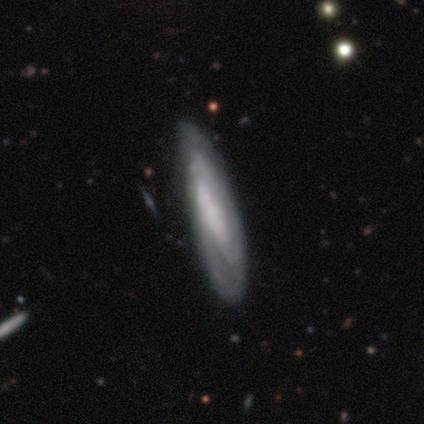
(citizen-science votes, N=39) Smooth or featured? featured or disk (77%)
Edge-on disk? no (63%)
Bar? no (63%)
Spiral arms? yes (79%)
Spiral winding? tight (87%)
Spiral arm count? can't tell (67%)
Bulge size? none (53%)
Merging? none (38%)